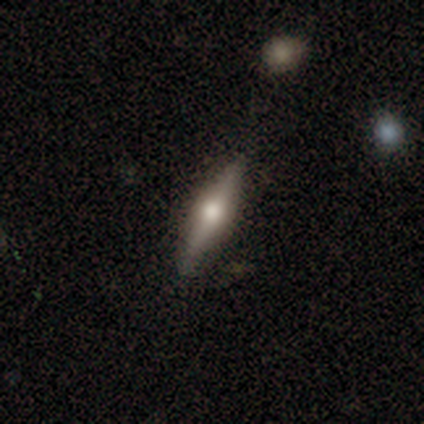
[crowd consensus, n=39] This appears to be a featured or disk galaxy (62%) viewed edge-on (96%) with a rounded central bulge (96%). Merging: none (85%).